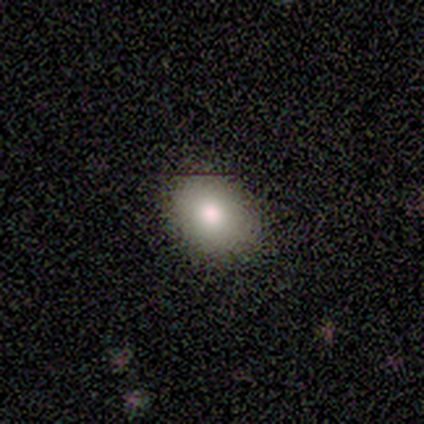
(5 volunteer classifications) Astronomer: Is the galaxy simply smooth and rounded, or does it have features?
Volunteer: smooth — 100%.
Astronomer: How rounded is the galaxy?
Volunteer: in between — 60% (runner-up: round, 40%).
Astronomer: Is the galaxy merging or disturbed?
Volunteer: none — 100%.